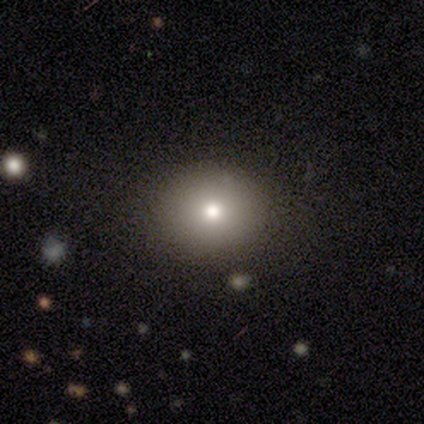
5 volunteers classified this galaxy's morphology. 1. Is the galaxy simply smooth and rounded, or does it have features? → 80% smooth, 20% featured or disk, 0% star or artifact.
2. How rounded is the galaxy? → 50% round (tied), 50% in between (tied), 0% cigar-shaped.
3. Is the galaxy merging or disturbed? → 80% none, 20% major disturbance, 0% minor disturbance, 0% merger.